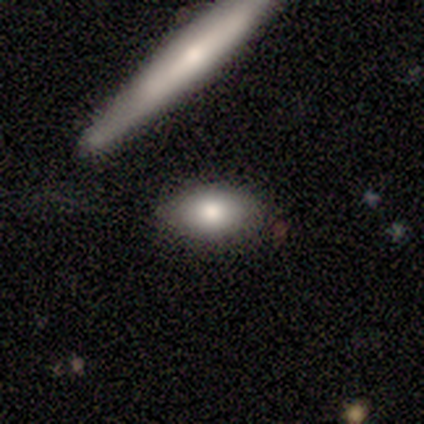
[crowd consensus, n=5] smooth_or_featured: smooth (p=0.60) [alt: featured or disk p=0.20]
how_rounded: in between (p=1.00)
merging: none (p=0.75) [alt: merger p=0.25]